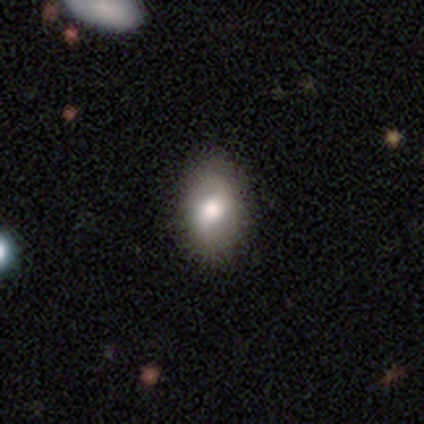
A smooth galaxy with no disk features (57%) that is in between round and cigar-shaped (83%). Merging: none (76%).